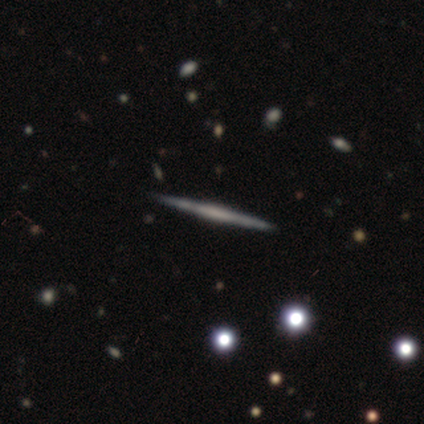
A featured or disk galaxy (60%) viewed edge-on (100%) with a boxy central bulge (67%). Merging: none (80%).